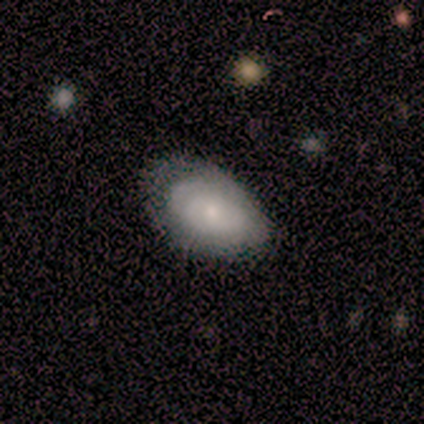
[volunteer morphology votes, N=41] Overall: featured or disk (59%; smooth 39%). Edge-on disk: no (88%). Bar: no (71%). Spiral arms: yes (57%; no 43%). Spiral arm count: can't tell (75%). Spiral winding: tight (58%; medium 42%). Bulge size: small (71%). Merging: none (48%; minor disturbance 40%).